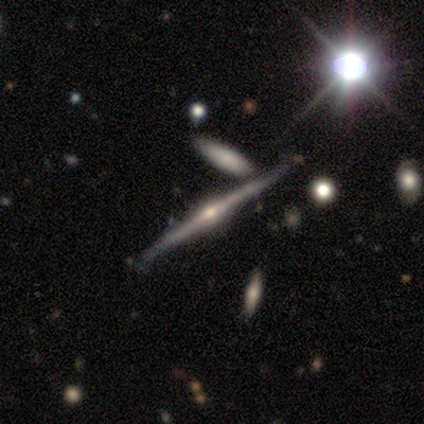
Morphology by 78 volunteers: A featured or disk galaxy (88%) viewed edge-on (100%) with a rounded central bulge (91%). Merging: none (38%).